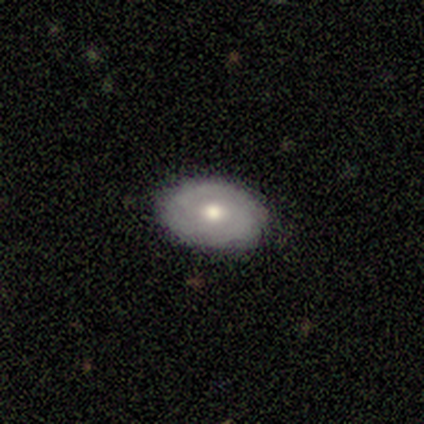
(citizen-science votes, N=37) This is possibly a smooth galaxy (54%). How rounded: likely in between (65%). Merging: clearly none (86%).